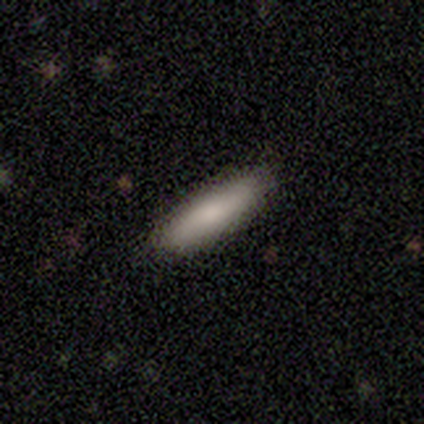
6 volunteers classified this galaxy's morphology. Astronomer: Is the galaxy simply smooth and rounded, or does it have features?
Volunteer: smooth — 67%.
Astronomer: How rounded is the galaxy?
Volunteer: cigar-shaped — 100%.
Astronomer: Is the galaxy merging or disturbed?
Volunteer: none — 100%.